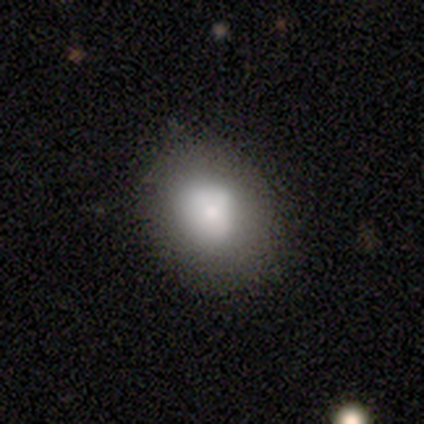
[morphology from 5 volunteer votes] smooth-or-featured: smooth: 80% | featured or disk: 20% | star or artifact: 0%
  how-rounded: round: 100% | in between: 0% | cigar-shaped: 0%
  merging: none: 60% | major disturbance: 40% | minor disturbance: 0% | merger: 0%